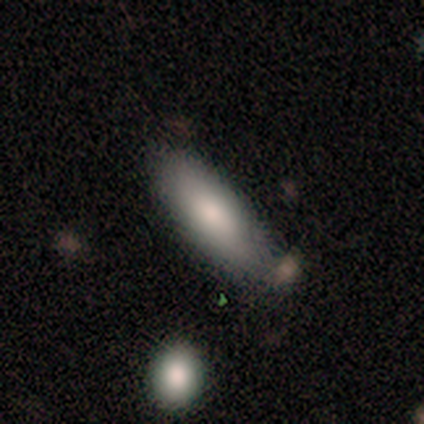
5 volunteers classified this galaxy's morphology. type=smooth (80%); roundness=in between (75%); merging=none (100%).